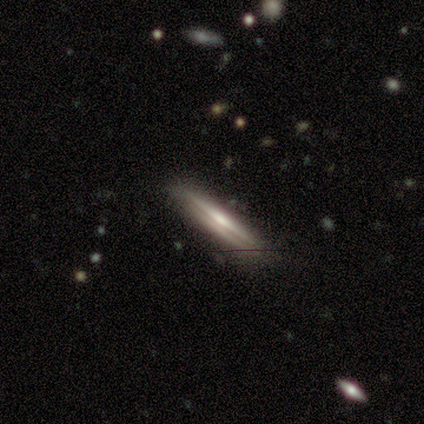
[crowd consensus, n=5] This is likely a featured or disk galaxy (60%). It is clearly viewed edge-on (100%). Edge-on bulge: marginally boxy (33%, tied with none and rounded). Merging: clearly none (100%).